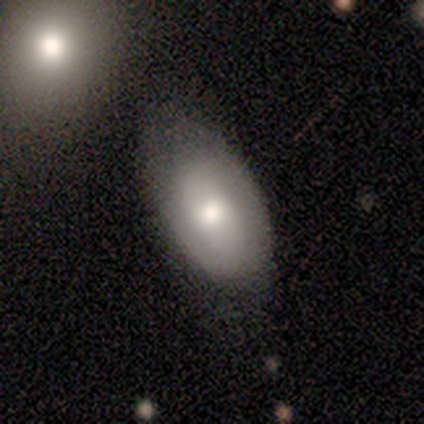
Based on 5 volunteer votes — Morphology: type=smooth (60%); roundness=in between (100%); merging=minor disturbance (60%).